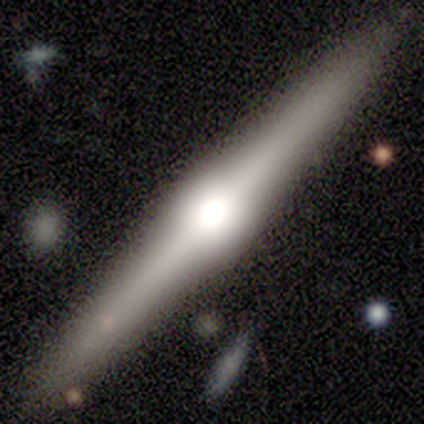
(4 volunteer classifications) smooth_or_featured: smooth (p=0.75) [alt: featured or disk p=0.25]
how_rounded: cigar-shaped (p=1.00)
merging: none (p=1.00)